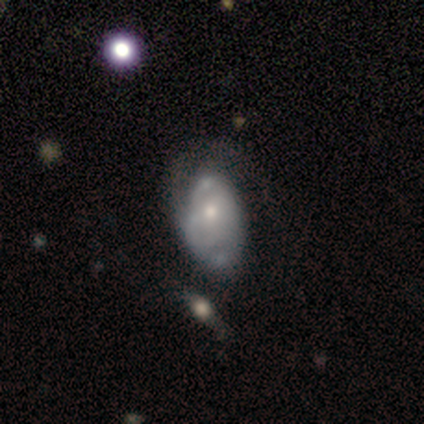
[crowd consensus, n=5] Q: Smooth or featured?
A: featured or disk (80%); runner-up: smooth (20%)
Q: Edge-on disk?
A: no (100%)
Q: Bar?
A: weak (50%); runner-up: strong (25%)
Q: Spiral arms?
A: yes (75%); runner-up: no (25%)
Q: Spiral winding?
A: tight (67%); runner-up: loose (33%)
Q: Spiral arm count?
A: 2 (67%); runner-up: can't tell (33%)
Q: Bulge size?
A: moderate (75%); runner-up: small (25%)
Q: Merging?
A: minor disturbance (40%); tied with: major disturbance (40%)